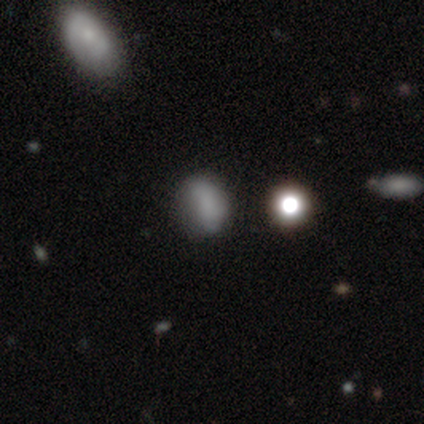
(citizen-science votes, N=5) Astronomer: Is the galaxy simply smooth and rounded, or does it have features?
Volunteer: smooth — 100%.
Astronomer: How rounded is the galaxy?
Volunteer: in between — 80%.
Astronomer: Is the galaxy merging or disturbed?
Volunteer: none — 60% (runner-up: minor disturbance, 40%).